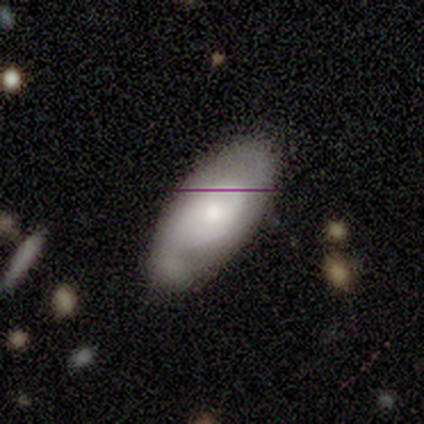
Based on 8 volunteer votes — Overall: featured or disk (88%). Edge-on disk: no (100%). Bar: no (86%). Spiral arms: yes (71%). Spiral arm count: 1 (40%, tied with 2). Spiral winding: tight (40%, tied with loose). Bulge size: moderate (43%; large 29%). Merging: none (75%).